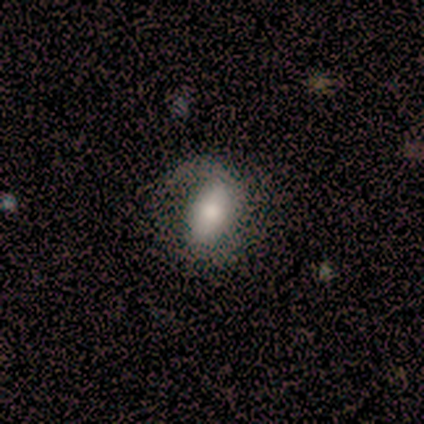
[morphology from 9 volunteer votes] This appears to be a featured or disk galaxy (56%) with no bar (50%), 2 (50%, tied with 3) medium (100%) spiral arms (50%, tied with no) and a moderate central bulge (50%). Merging: major disturbance (50%).